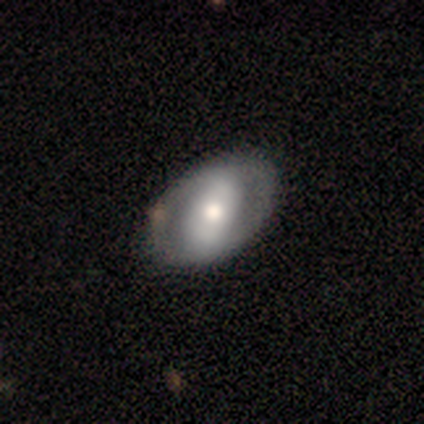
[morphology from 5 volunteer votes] This appears to be a featured or disk galaxy (60%) with a strong bar (67%), no spiral arms (100%) and a moderate central bulge (100%). Merging: none (100%).